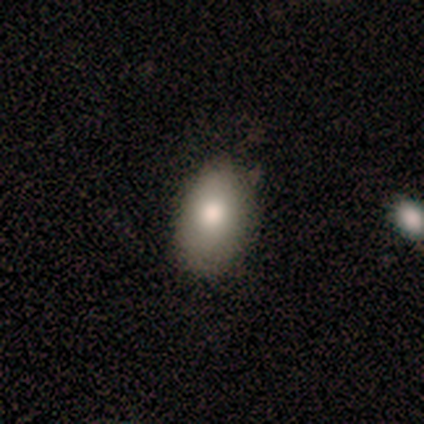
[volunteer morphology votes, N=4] Smooth or featured: smooth — 100%
How rounded: in between — 100%
Merging: none — 100%